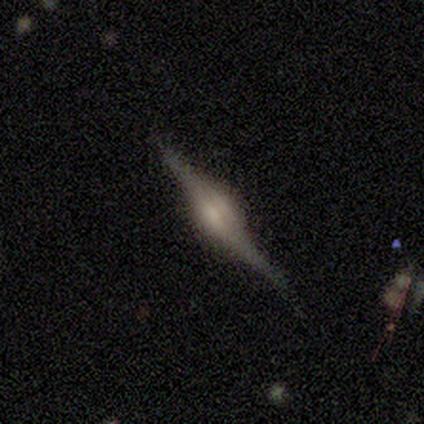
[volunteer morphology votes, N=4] This is likely a featured or disk galaxy (75%). It is clearly viewed edge-on (100%). Edge-on bulge: clearly rounded (100%). Merging: clearly none (100%).